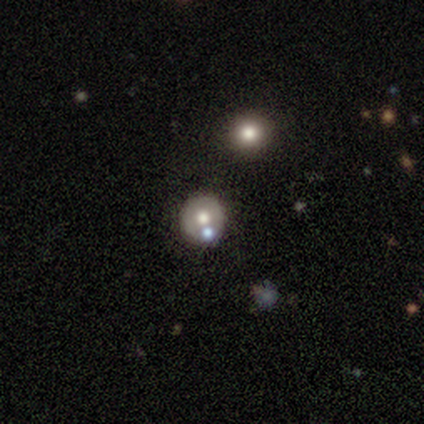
Morphology: type=smooth (49%); roundness=round (89%); merging=none (63%).